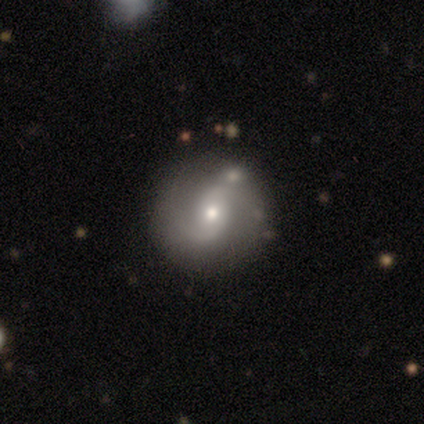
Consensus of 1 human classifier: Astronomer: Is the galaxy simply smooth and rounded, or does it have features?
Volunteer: featured or disk — 100%.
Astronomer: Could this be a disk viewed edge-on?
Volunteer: no — 100%.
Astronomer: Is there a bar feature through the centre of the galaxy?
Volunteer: no — 100%.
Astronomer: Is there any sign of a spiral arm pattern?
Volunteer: yes — 100%.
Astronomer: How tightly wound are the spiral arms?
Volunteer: medium — 100%.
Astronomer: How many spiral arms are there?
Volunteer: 2 — 100%.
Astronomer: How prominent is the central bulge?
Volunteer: small — 100%.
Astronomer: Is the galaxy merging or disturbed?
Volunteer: none — 100%.